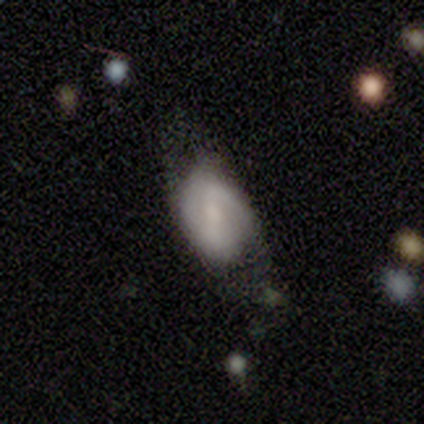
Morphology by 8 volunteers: smooth_or_featured: featured or disk (p=0.88) [alt: smooth p=0.12]
disk_edge_on: no (p=0.86) [alt: yes p=0.14]
bar: no (p=0.50) [alt: strong p=0.33]
has_spiral_arms: yes (p=0.50) [tied with: no p=0.50]
spiral_winding: tight (p=0.67) [alt: loose p=0.33]
spiral_arm_count: 2 (p=0.67) [alt: 1 p=0.33]
bulge_size: small (p=1.00)
merging: none (p=0.50) [alt: major disturbance p=0.38]